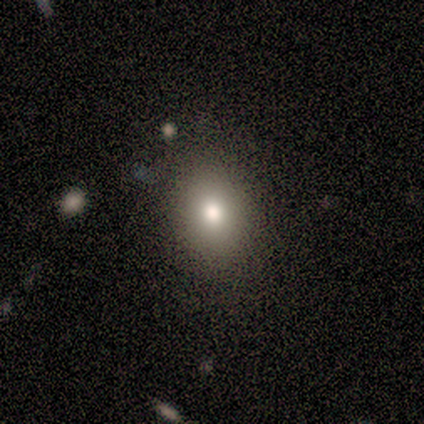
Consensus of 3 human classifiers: Volunteers were most divided on "how rounded" (2-way tie): round: 50%, in between: 50%, cigar-shaped: 0%. More confident: merging — none (100%); smooth or featured — smooth (67%).